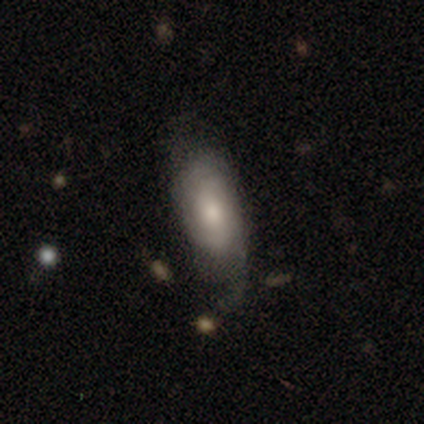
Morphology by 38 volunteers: This appears to be a smooth galaxy with no disk features (50%, tied with featured or disk) that is in between round and cigar-shaped (74%). Merging: none (45%).